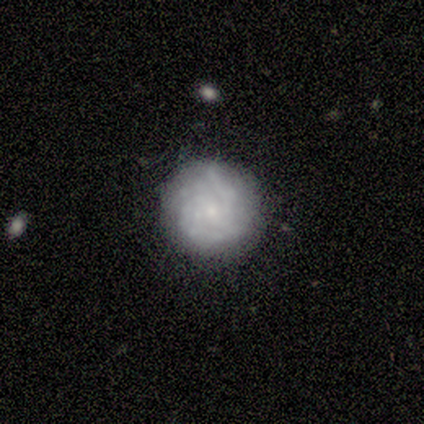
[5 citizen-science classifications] smooth-or-featured: featured or disk: 60% | smooth: 40% | star or artifact: 0%
  disk-edge-on: no: 100% | yes: 0%
    bar: no: 100% | strong: 0% | weak: 0%
    has-spiral-arms: yes: 67% | no: 33%
      spiral-winding: tight: 100% | medium: 0% | loose: 0%
      spiral-arm-count: 2: 50% (tied) | 3: 50% (tied) | 1: 0% | 4: 0% | more than 4: 0% | can't tell: 0%
    bulge-size: small: 67% | none: 33% | dominant: 0% | large: 0% | moderate: 0%
  merging: none: 100% | minor disturbance: 0% | major disturbance: 0% | merger: 0%